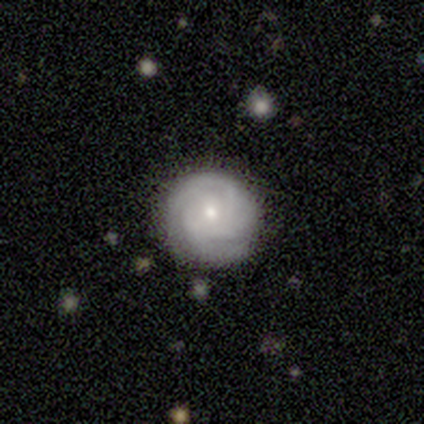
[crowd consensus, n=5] A featured or disk galaxy (100%) with no bar (100%), 2 (40%, tied with can't tell) tight (100%) spiral arms (100%) and a small central bulge (100%). Merging: none (100%).